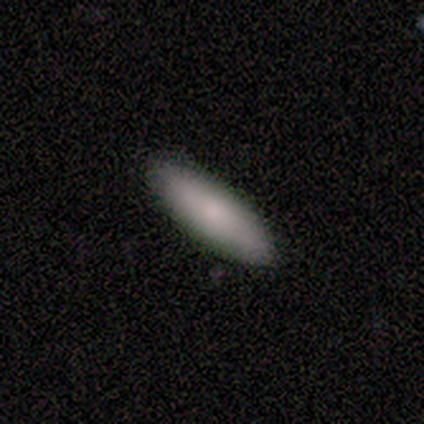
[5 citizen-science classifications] smooth_or_featured: smooth (p=0.60) [alt: featured or disk p=0.40]
how_rounded: in between (p=0.67) [alt: cigar-shaped p=0.33]
merging: none (p=0.80) [alt: minor disturbance p=0.20]